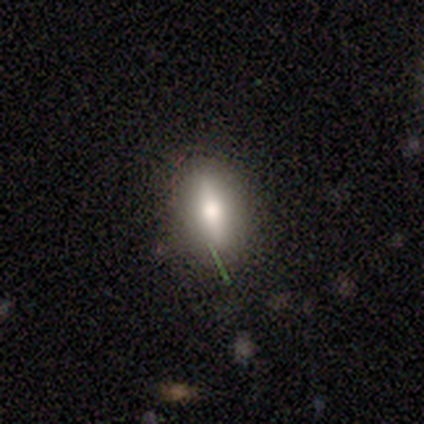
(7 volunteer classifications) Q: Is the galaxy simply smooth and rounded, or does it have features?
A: smooth — 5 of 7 (71%).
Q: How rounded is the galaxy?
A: in between — 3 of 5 (60%).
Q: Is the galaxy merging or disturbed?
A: none — 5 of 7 (71%).